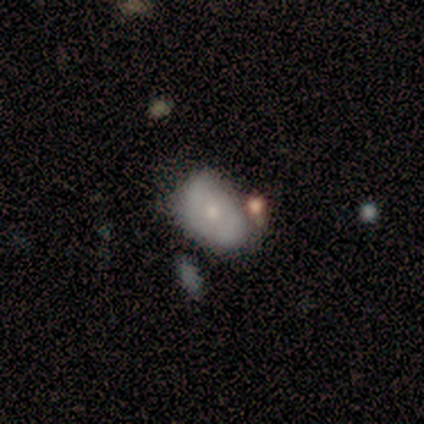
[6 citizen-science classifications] Volunteers were most divided on "merging": minor disturbance: 50%, merger: 33%, none: 17%, major disturbance: 0%. More confident: how rounded — in between (100%); smooth or featured — smooth (67%).